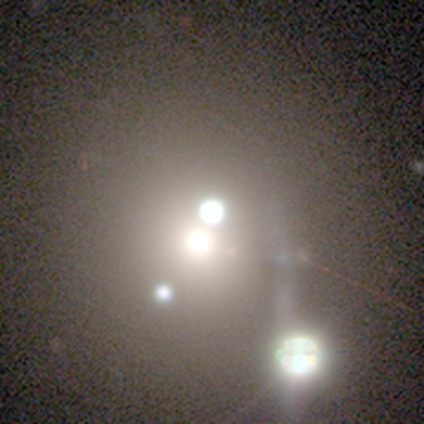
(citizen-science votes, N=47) Smooth or featured: star or artifact — 55% (smooth — 23%)